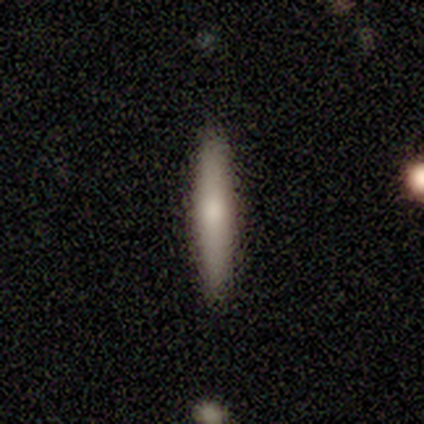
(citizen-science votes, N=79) A smooth galaxy with no disk features (77%) that is cigar-shaped (92%). Merging: none (44%).